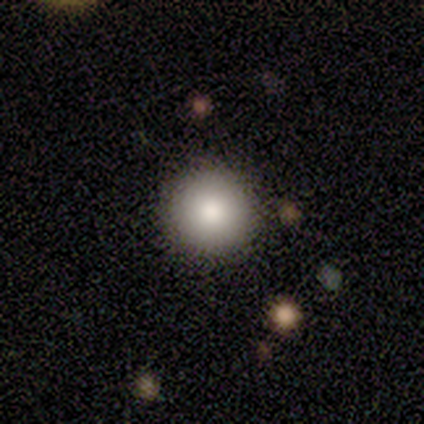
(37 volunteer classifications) Volunteers were most divided on "merging": none: 94%, minor disturbance: 6%, major disturbance: 0%, merger: 0%. More confident: how rounded — round (100%); smooth or featured — smooth (95%).